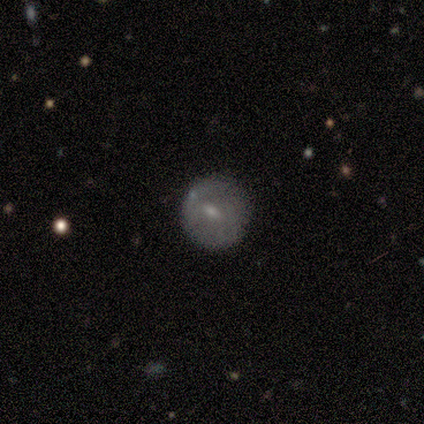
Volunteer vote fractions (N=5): featured or disk 60%, smooth 40%, star or artifact 0%. Down the decision tree: edge-on disk — no (67%); bar — weak (100%); spiral arms — no (100%); bulge size — small (100%); merging — none (80%).